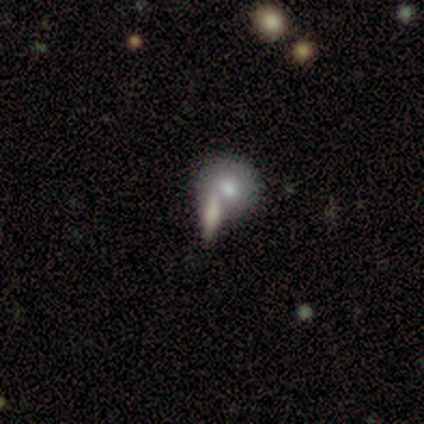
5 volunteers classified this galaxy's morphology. Smooth or featured: smooth — 60% (featured or disk — 40%)
How rounded: cigar-shaped — 67% (round — 33%)
Merging: merger — 60% (none — 40%)